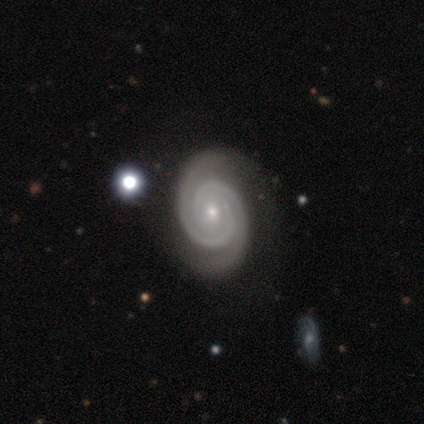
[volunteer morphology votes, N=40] type=featured or disk (98%); edge-on=no (100%); bar=no (67%); spiral arms=yes (100%); winding=tight (90%); arm count=2 (77%); bulge=small (72%); merging=none (85%).